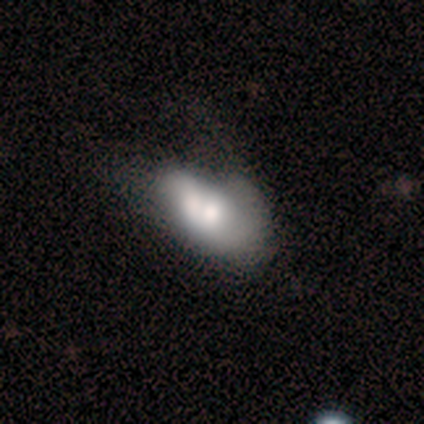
Q: Smooth or featured?
A: smooth (50%); tied with: featured or disk (50%)
Q: How rounded?
A: in between (50%); tied with: cigar-shaped (50%)
Q: Merging?
A: none (50%); runner-up: minor disturbance (25%)